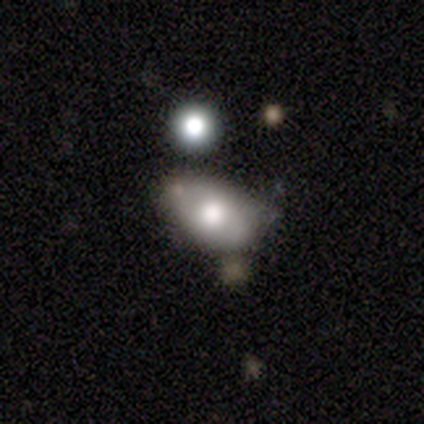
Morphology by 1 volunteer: Consensus on every question: smooth or featured — featured or disk (100%); edge-on disk — yes (100%); edge-on bulge — rounded (100%); merging — none (100%).